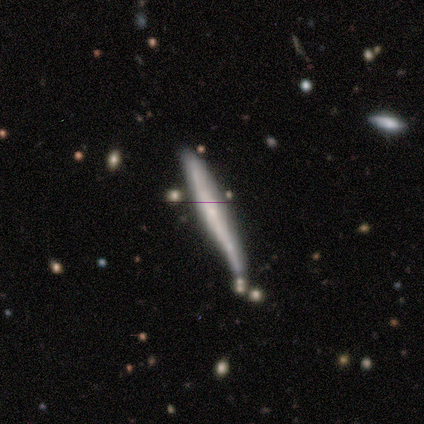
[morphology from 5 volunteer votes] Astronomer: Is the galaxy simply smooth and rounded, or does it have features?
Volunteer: smooth — 60% (runner-up: featured or disk, 40%).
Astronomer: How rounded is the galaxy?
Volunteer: cigar-shaped — 100%.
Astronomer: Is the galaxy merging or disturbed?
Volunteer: none — 80%.